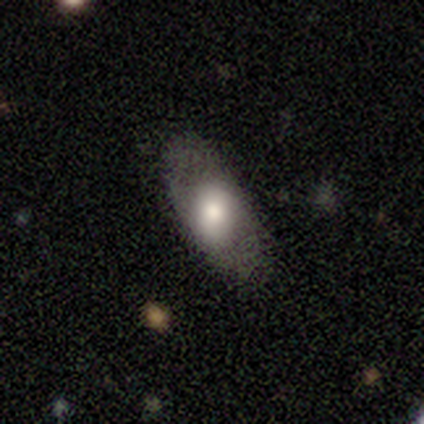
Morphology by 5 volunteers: Smooth or featured?
  - smooth: 60% *
  - featured or disk: 40%
  - star or artifact: 0%
How rounded?
  - in between: 100% *
  - round: 0%
  - cigar-shaped: 0%
Merging?
  - none: 60% *
  - minor disturbance: 40%
  - major disturbance: 0%
  - merger: 0%